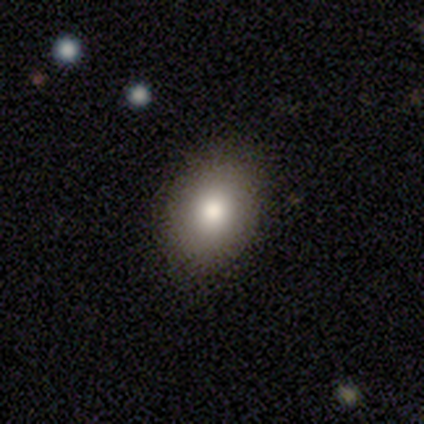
smooth_or_featured: smooth (p=0.83) [alt: featured or disk p=0.09]
how_rounded: in between (p=0.74) [alt: round p=0.26]
merging: none (p=0.85) [alt: minor disturbance p=0.15]